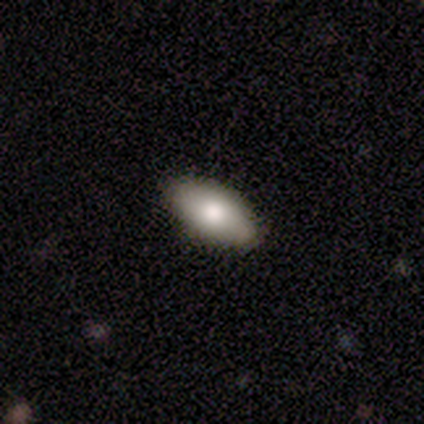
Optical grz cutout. It shows a smooth galaxy with no disk features (80%) that is in between round and cigar-shaped (100%). Merging: none (60%).